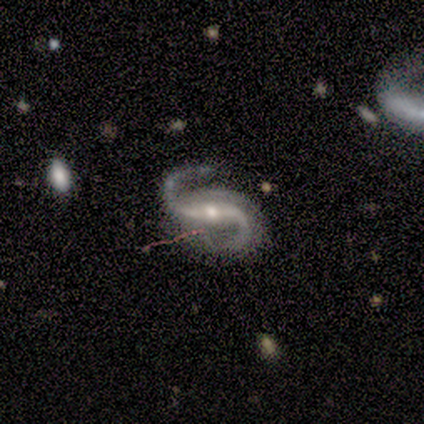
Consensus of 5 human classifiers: Smooth or featured? 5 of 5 (100%) said featured or disk. Edge-on disk? 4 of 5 (80%) said no. Bar? 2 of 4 (50%) said weak. Spiral arms? 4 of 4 (100%) said yes. Spiral winding? 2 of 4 (50%) said loose. Spiral arm count? 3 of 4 (75%) said 2. Bulge size? 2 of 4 (50%, tied with small) said moderate. Merging? 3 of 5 (60%) said none.